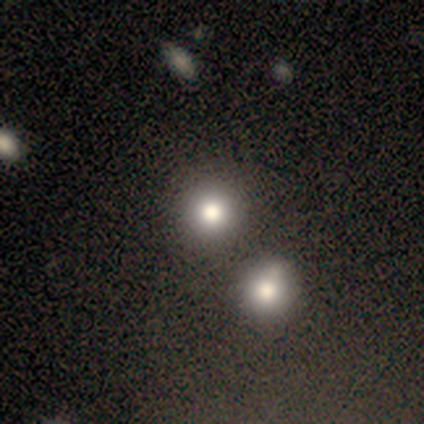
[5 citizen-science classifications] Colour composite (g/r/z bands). It shows a smooth galaxy with no disk features (60%) that is round (100%). Merging: minor disturbance (67%).